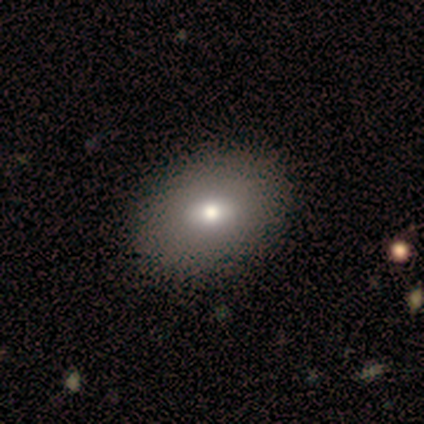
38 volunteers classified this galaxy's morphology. Smooth or featured? 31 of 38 (82%) said smooth. How rounded? 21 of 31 (68%) said in between. Merging? 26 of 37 (70%) said none.